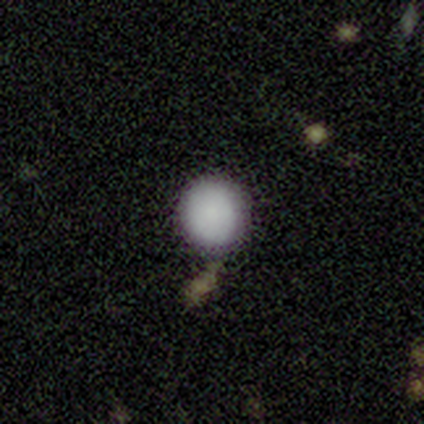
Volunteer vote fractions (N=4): Smooth or featured? smooth (100%)
How rounded? round (75%)
Merging? none (50%)